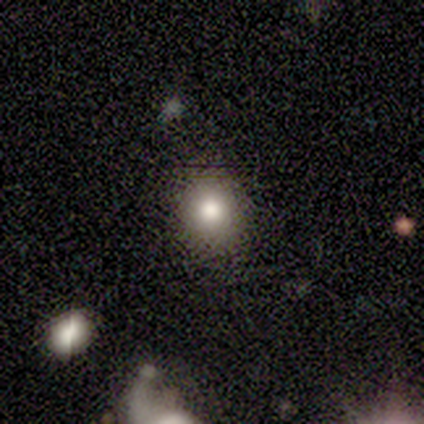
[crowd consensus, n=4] Volunteers were most divided on "how rounded": round: 67%, in between: 33%, cigar-shaped: 0%. More confident: merging — none (100%); smooth or featured — smooth (75%).